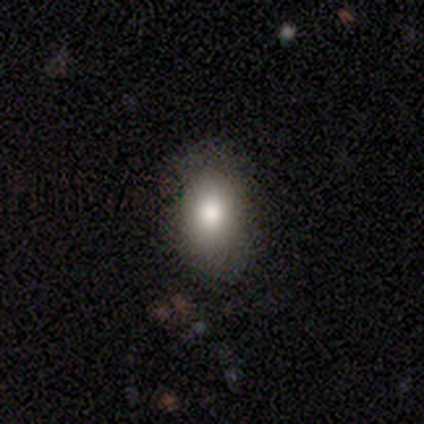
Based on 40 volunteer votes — smooth_or_featured: smooth (p=0.90) [alt: featured or disk p=0.07]
how_rounded: in between (p=0.86) [alt: round p=0.14]
merging: none (p=0.67) [alt: minor disturbance p=0.05]